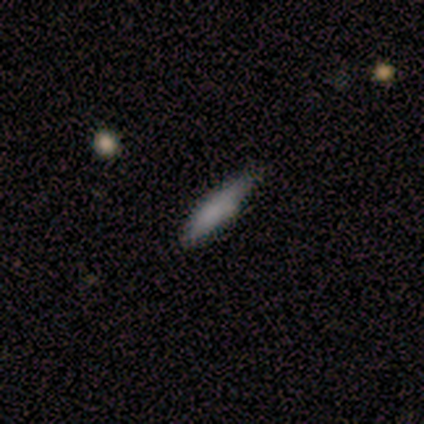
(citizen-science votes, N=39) Overall: smooth (77%). How rounded: cigar-shaped (97%). Merging: none (67%).